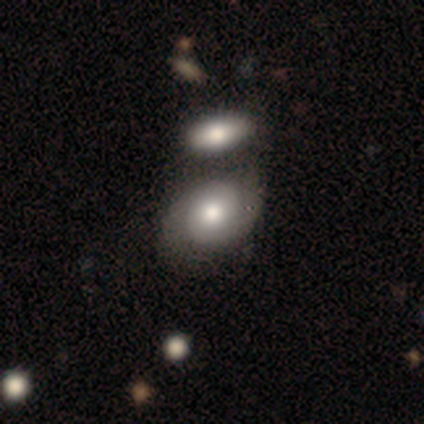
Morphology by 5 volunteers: Smooth or featured? featured or disk (80%)
Edge-on disk? no (100%)
Bar? no (75%)
Spiral arms? yes (100%)
Spiral winding? tight (100%)
Spiral arm count? 2 (100%)
Bulge size? moderate (100%)
Merging? none (100%)